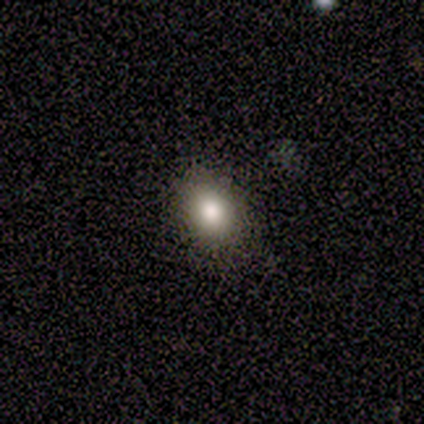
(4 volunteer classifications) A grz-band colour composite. It shows a smooth galaxy with no disk features (50%, tied with star or artifact) that is round (50%, tied with in between). Merging: none (100%).